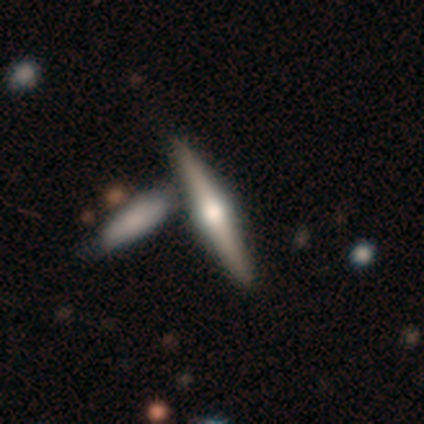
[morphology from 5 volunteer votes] Smooth or featured? 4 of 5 (80%) said featured or disk. Edge-on disk? 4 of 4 (100%) said yes. Edge-on bulge? 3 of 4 (75%) said rounded. Merging? 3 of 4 (75%) said none.